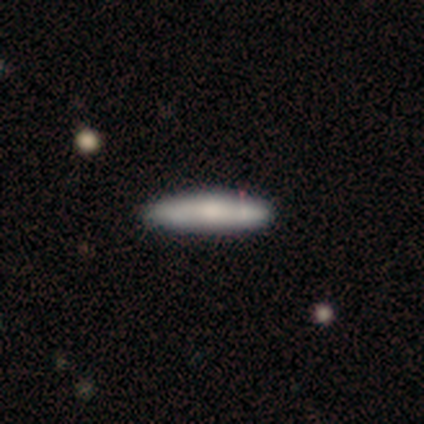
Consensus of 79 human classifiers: Q: Smooth or featured?
A: smooth (72%); runner-up: featured or disk (27%)
Q: How rounded?
A: cigar-shaped (77%); runner-up: in between (23%)
Q: Merging?
A: none (54%); runner-up: minor disturbance (5%)